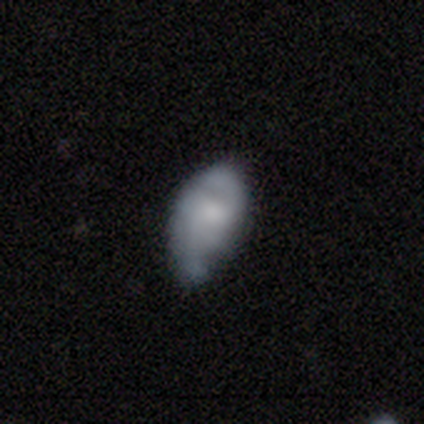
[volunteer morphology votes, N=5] This is clearly a smooth galaxy (80%). How rounded: possibly in between (50%, tied with cigar-shaped). Merging: likely minor disturbance (60%).